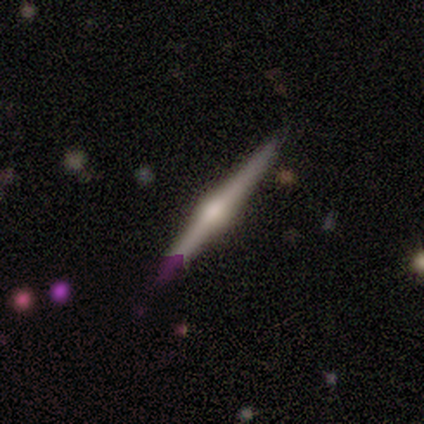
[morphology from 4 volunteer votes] featured or disk 75%, star or artifact 25%, smooth 0%. Down the decision tree: edge-on disk — yes (100%); edge-on bulge — rounded (100%); merging — none (100%).